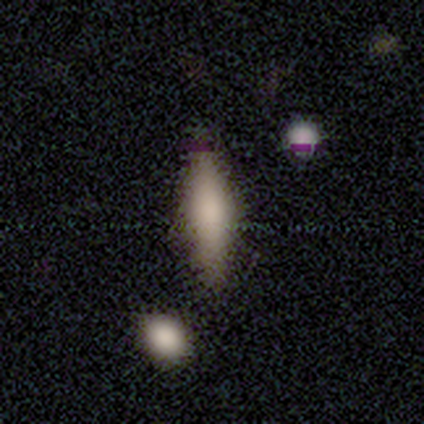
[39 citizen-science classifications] smooth-or-featured: smooth: 67% | featured or disk: 21% | star or artifact: 13%
  how-rounded: cigar-shaped: 69% | in between: 27% | round: 4%
  merging: none: 53% | minor disturbance: 21% | major disturbance: 3% | merger: 3%